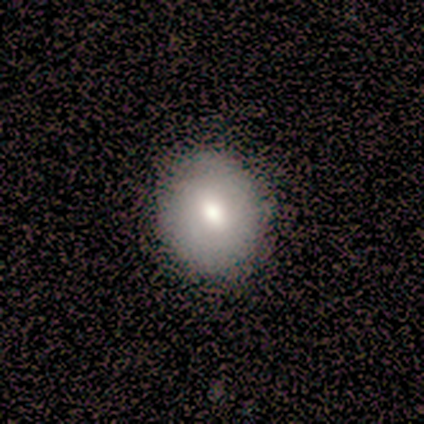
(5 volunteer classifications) This appears to be a smooth galaxy with no disk features (100%) that is round (100%). Merging: none (100%).